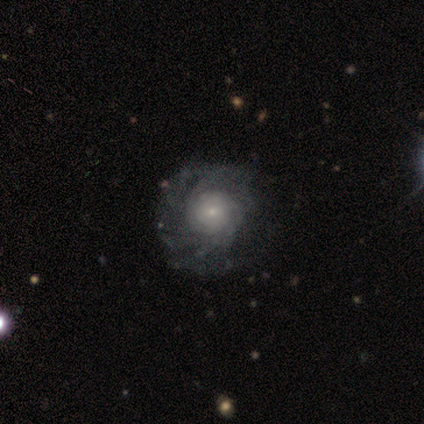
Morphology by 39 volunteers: type=featured or disk (87%); edge-on=no (97%); bar=no (76%); spiral arms=yes (94%); winding=tight (74%); arm count=more than 4 (48%); bulge=small (61%); merging=none (38%).